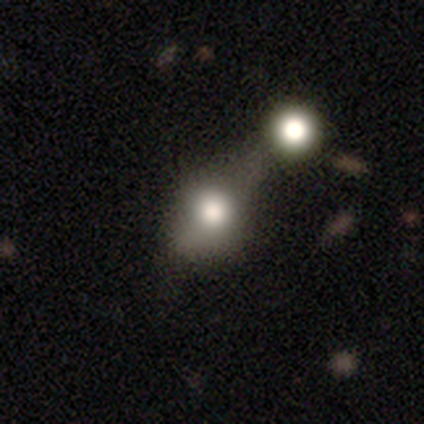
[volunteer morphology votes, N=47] This appears to be a smooth galaxy with no disk features (68%) that is round (50%, tied with in between). Merging: merger (51%).